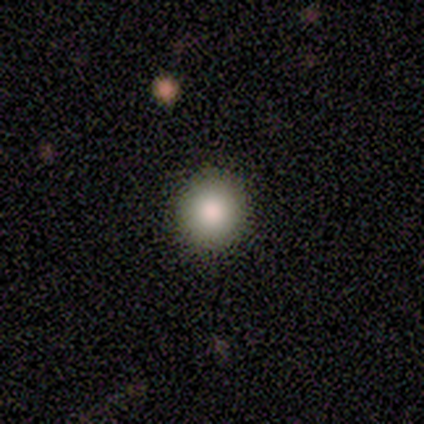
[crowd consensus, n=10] This is clearly a smooth galaxy (80%). How rounded: clearly round (88%). Merging: likely none (75%).